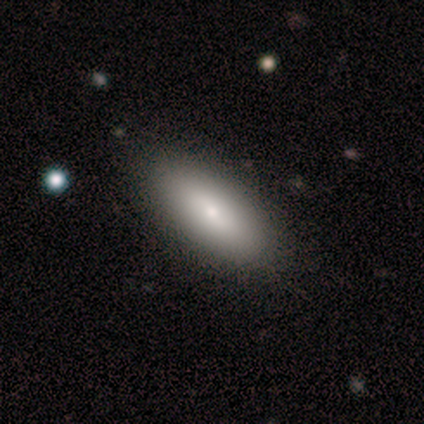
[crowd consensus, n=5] This appears to be a smooth galaxy with no disk features (60%) that is in between round and cigar-shaped (100%). Merging: none (80%).